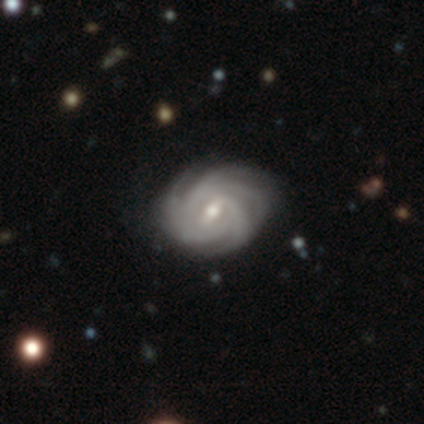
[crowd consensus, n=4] A featured or disk galaxy (100%) with a weak bar (50%), 3 (50%) tight (50%, tied with medium) spiral arms (100%) and a small central bulge (75%). Merging: none (50%, tied with minor disturbance).